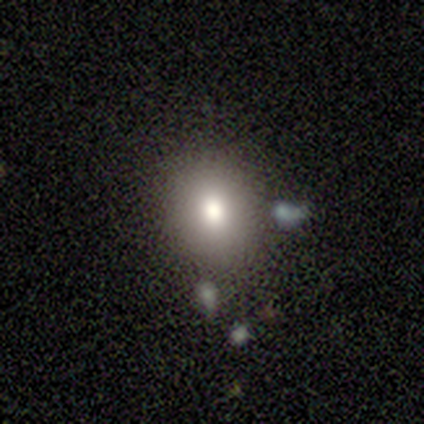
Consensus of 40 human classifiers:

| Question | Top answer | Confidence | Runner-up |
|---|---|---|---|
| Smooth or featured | smooth | 70% | star or artifact (18%) |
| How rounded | round | 61% | in between (39%) |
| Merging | none | 67% | minor disturbance (24%) |